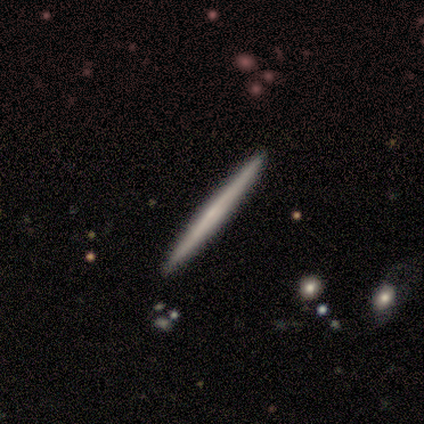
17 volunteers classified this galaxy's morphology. Overall: featured or disk (53%; smooth 47%). Edge-on disk: yes (100%). Edge-on bulge: none (78%). Merging: none (100%).